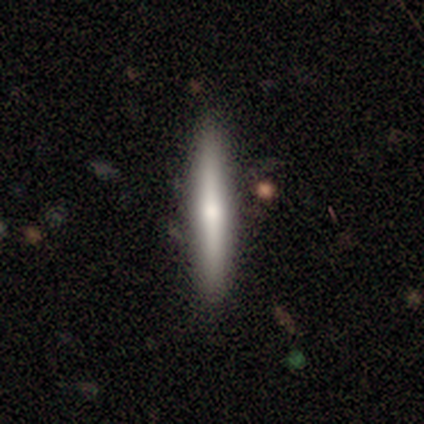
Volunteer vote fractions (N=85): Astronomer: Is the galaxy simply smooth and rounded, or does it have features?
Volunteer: featured or disk — 49% (runner-up: smooth, 44%).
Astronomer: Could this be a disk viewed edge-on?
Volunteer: yes — 98%.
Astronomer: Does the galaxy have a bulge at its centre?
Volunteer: rounded — 76%.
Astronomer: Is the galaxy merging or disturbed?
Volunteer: none — 94%.